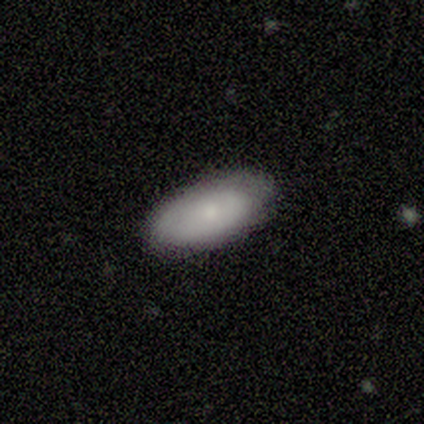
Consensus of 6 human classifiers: Smooth or featured?
  - smooth: 83% *
  - star or artifact: 17%
  - featured or disk: 0%
How rounded?
  - in between: 100% *
  - round: 0%
  - cigar-shaped: 0%
Merging?
  - none: 60% *
  - minor disturbance: 20%
  - major disturbance: 20%
  - merger: 0%